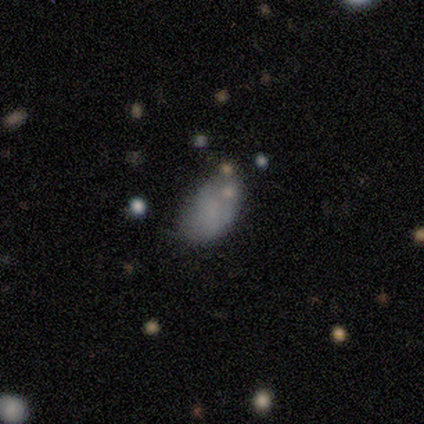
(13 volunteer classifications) A smooth galaxy with no disk features (85%) that is in between round and cigar-shaped (91%). Merging: none (42%, tied with minor disturbance).